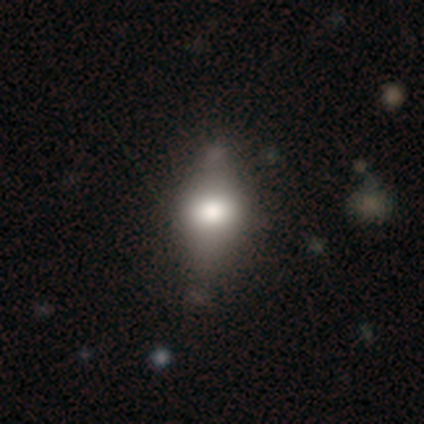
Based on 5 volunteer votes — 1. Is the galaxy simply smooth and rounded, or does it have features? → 100% smooth, 0% featured or disk, 0% star or artifact.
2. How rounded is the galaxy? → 100% in between, 0% round, 0% cigar-shaped.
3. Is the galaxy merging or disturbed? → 40% none (tied), 40% major disturbance (tied), 20% minor disturbance, 0% merger.